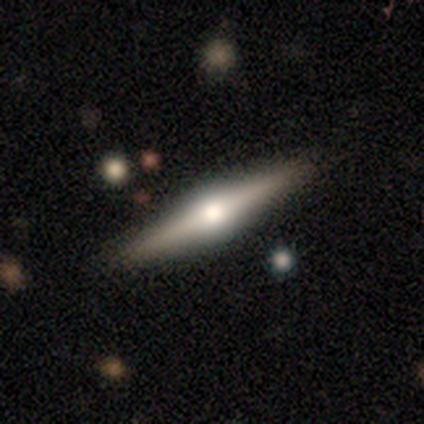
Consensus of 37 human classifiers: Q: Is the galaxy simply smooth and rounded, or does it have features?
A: featured or disk — 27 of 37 (73%).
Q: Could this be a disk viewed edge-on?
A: yes — 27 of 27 (100%).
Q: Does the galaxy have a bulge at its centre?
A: rounded — 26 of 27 (96%).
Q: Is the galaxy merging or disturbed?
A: none — 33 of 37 (89%).